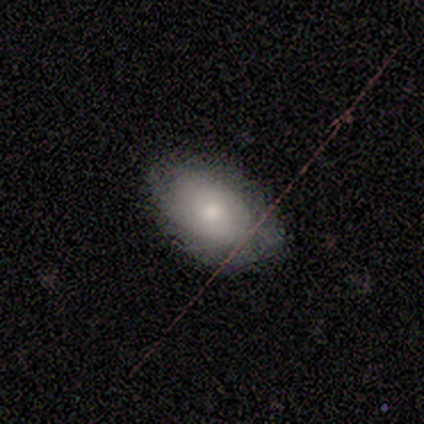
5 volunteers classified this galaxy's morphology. Smooth or featured: smooth — 60% (featured or disk — 40%)
How rounded: in between — 100%
Merging: none — 80% (minor disturbance — 20%)